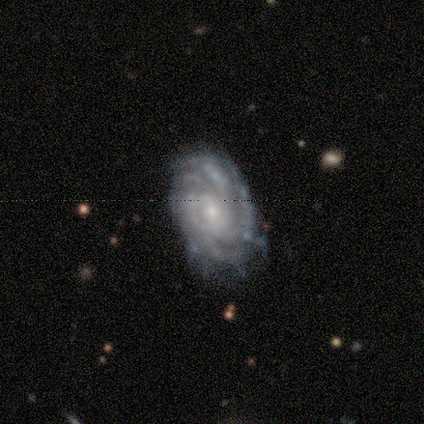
Morphology: type=featured or disk (92%); edge-on=no (100%); bar=no (50%); spiral arms=yes (92%); winding=tight (73%); arm count=can't tell (55%); bulge=small (58%); merging=minor disturbance (46%).